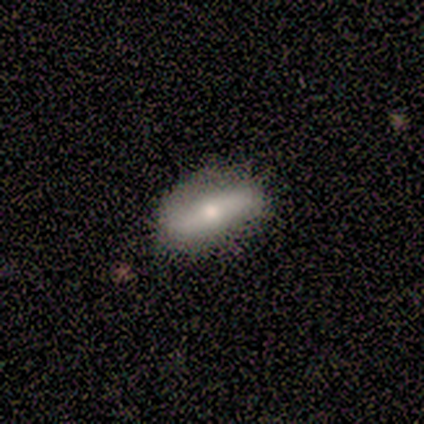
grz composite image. It shows a smooth galaxy with no disk features (50%) that is in between round and cigar-shaped (100%). Merging: none (100%).